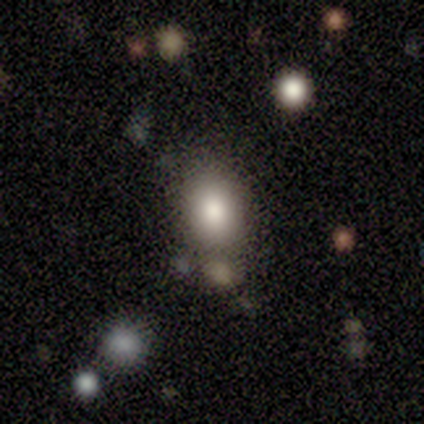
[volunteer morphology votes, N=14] Volunteers were most divided on "merging": none: 67%, major disturbance: 33%, minor disturbance: 0%, merger: 0%. More confident: smooth or featured — smooth (79%); how rounded — in between (73%).